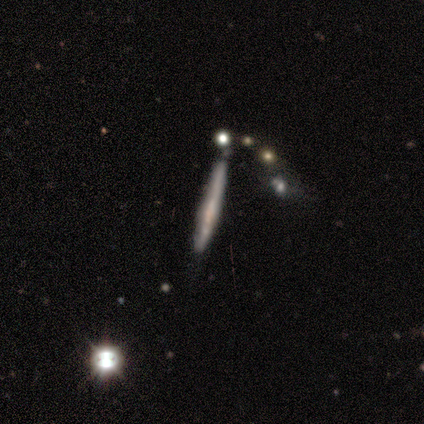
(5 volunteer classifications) This appears to be a smooth galaxy with no disk features (60%) that is cigar-shaped (100%). Merging: none (60%).